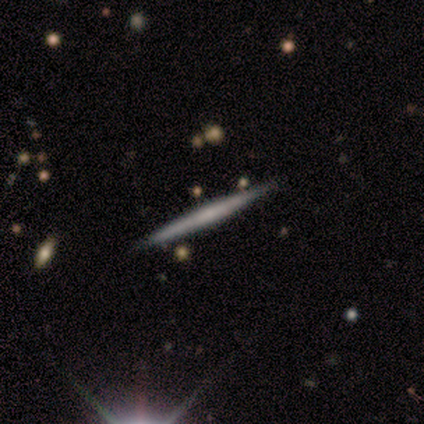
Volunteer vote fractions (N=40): A featured or disk galaxy (70%) viewed edge-on (96%) with no central bulge (67%). Merging: none (92%).